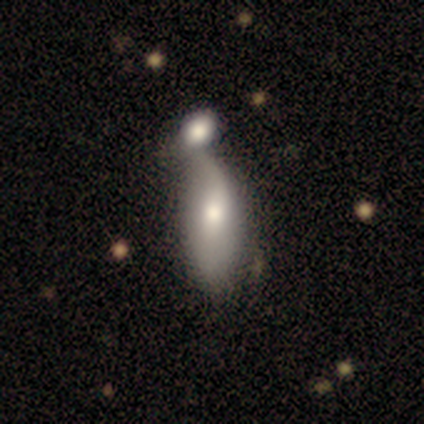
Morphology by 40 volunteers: Overall: smooth (68%). How rounded: in between (74%). Merging: merger (55%; minor disturbance 21%).